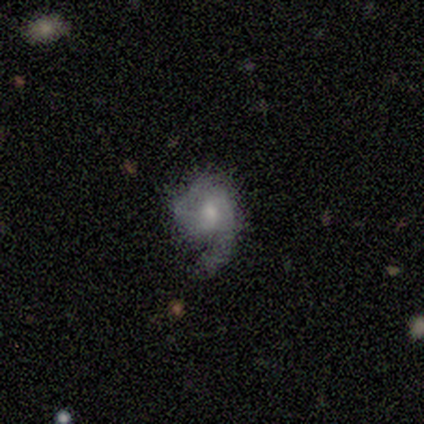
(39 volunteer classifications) Smooth or featured: featured or disk — 64% (smooth — 28%)
Edge-on disk: no — 100%
Bar: no — 76% (weak — 24%)
Spiral arms: yes — 88% (no — 12%)
Spiral winding: loose — 36% (tight — 32%)
Spiral arm count: 1 — 55% (2 — 36%)
Bulge size: moderate — 60% (small — 36%)
Merging: none — 42% (major disturbance — 36%)